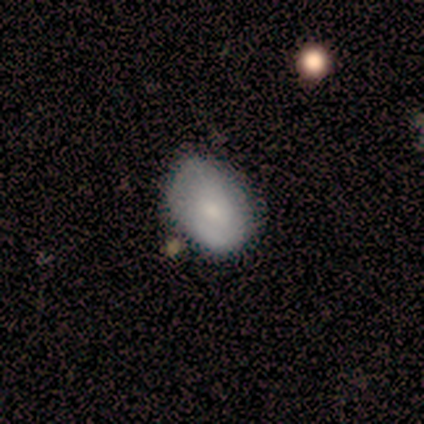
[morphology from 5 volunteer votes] smooth_or_featured: smooth (p=1.00)
how_rounded: in between (p=0.80) [alt: round p=0.20]
merging: none (p=0.60) [alt: minor disturbance p=0.20]